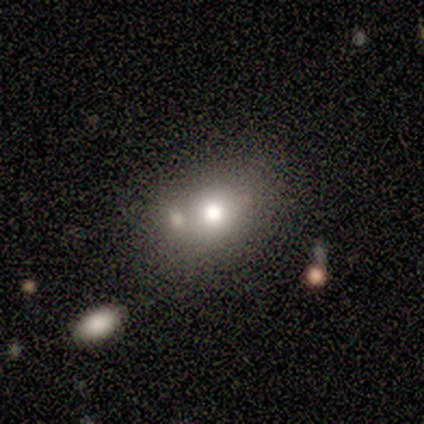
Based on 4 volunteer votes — This is likely a smooth galaxy (75%). How rounded: likely round (67%). Merging: clearly none (100%).